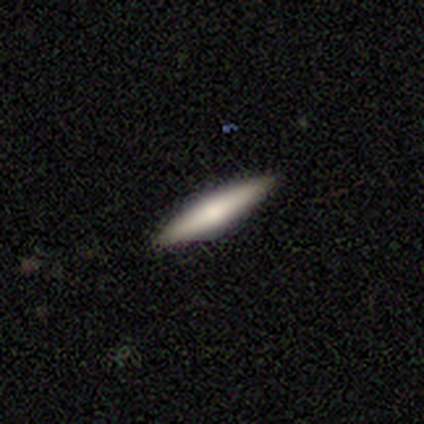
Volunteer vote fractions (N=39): Morphology: type=smooth (51%); roundness=cigar-shaped (85%); merging=none (86%).